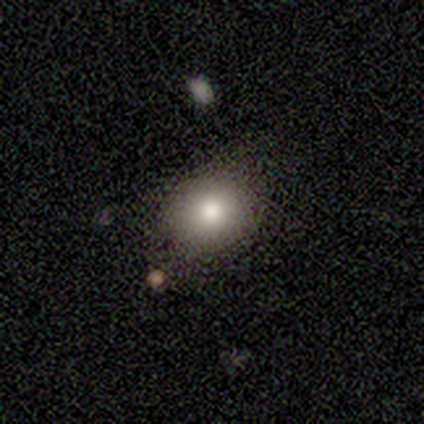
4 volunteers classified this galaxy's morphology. smooth-or-featured: smooth: 100% | featured or disk: 0% | star or artifact: 0%
  how-rounded: round: 75% | in between: 25% | cigar-shaped: 0%
  merging: none: 75% | minor disturbance: 25% | major disturbance: 0% | merger: 0%